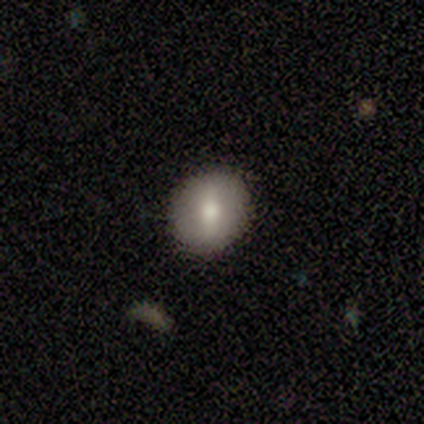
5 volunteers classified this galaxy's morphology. Q: Smooth or featured?
A: smooth (80%); runner-up: featured or disk (20%)
Q: How rounded?
A: round (75%); runner-up: in between (25%)
Q: Merging?
A: none (100%)